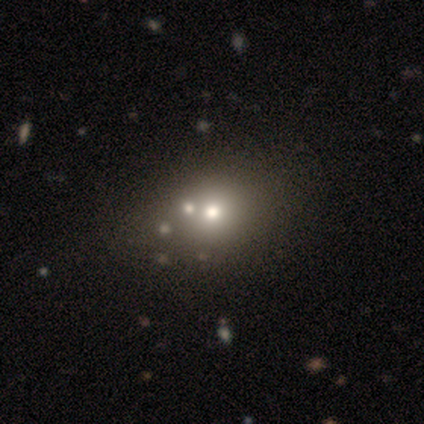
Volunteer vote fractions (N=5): Smooth or featured?
  - smooth: 60% *
  - featured or disk: 20%
  - star or artifact: 20%
How rounded?
  - round: 67% *
  - in between: 33%
  - cigar-shaped: 0%
Merging?
  - none: 50% *
  - major disturbance: 25%
  - merger: 25%
  - minor disturbance: 0%